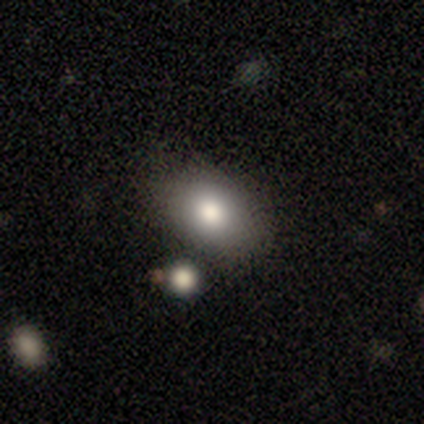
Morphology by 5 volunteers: A smooth galaxy with no disk features (100%) that is round (60%).

Vote fractions:
- Smooth or featured? smooth: 100% / featured or disk: 0% / star or artifact: 0%
- How rounded? round: 60% / in between: 40% / cigar-shaped: 0%
- Merging? none: 60% / minor disturbance: 20% / merger: 20% / major disturbance: 0%